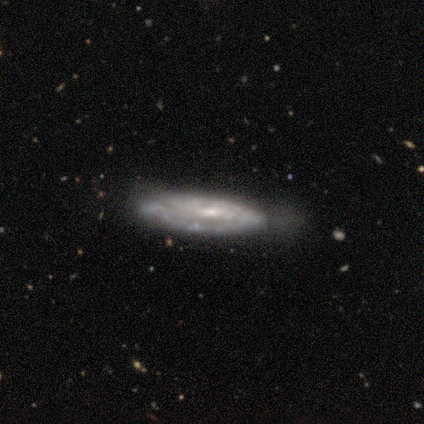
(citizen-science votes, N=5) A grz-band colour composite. It shows a featured or disk galaxy (100%) with a weak bar (67%), tight (33%, tied with medium and loose) spiral arms (100%) and a moderate central bulge (67%). Merging: none (60%).